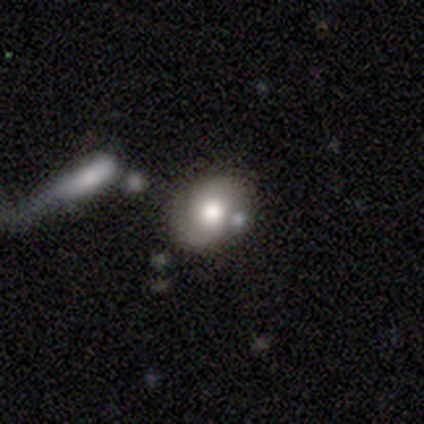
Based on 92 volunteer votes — Smooth or featured? smooth (50%)
How rounded? in between (63%)
Merging? none (63%)